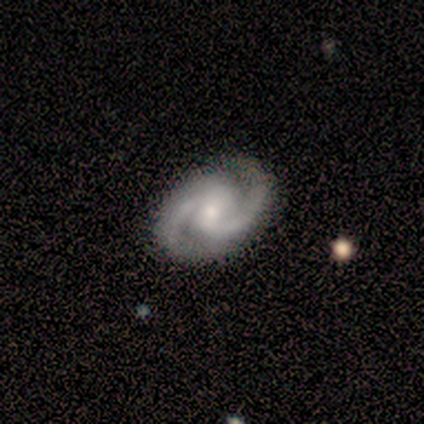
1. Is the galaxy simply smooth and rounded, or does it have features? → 75% featured or disk, 25% star or artifact, 0% smooth.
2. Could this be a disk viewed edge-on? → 100% no, 0% yes.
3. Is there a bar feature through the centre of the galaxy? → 67% no, 33% weak, 0% strong.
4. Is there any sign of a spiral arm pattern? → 100% yes, 0% no.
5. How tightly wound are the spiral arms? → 33% tight (tied), 33% medium (tied), 33% loose (tied).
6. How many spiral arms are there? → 100% 2, 0% 1, 0% 3, 0% 4, 0% more than 4, 0% can't tell.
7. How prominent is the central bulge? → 67% moderate, 33% none, 0% dominant, 0% large, 0% small.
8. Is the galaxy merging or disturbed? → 100% none, 0% minor disturbance, 0% major disturbance, 0% merger.